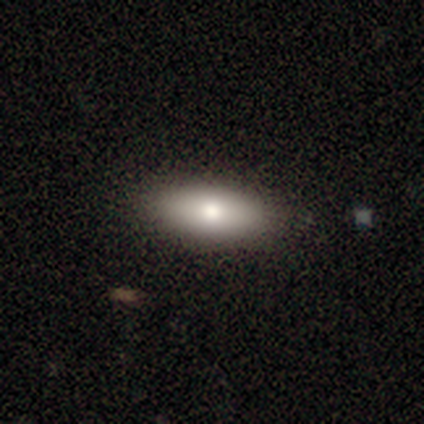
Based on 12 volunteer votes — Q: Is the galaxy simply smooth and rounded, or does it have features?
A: smooth — 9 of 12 (75%).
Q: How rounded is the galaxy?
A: in between — 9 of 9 (100%).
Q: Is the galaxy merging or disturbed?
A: none — 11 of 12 (92%).